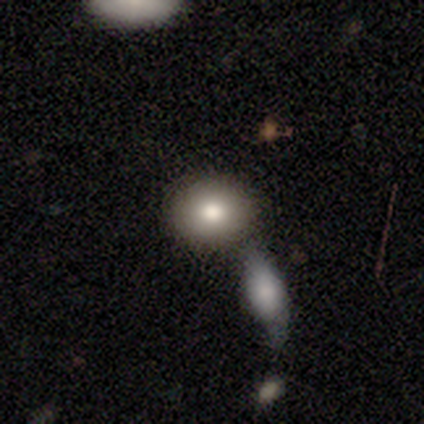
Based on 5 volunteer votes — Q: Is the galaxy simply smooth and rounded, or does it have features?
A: smooth — 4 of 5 (80%).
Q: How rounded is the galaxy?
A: in between — 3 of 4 (75%).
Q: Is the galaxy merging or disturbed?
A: none — 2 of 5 (40%, tied with minor disturbance).